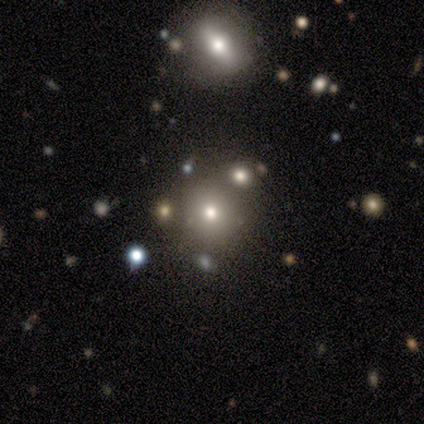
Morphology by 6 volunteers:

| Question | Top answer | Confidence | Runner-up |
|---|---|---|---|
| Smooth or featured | star or artifact | 50% | smooth (33%) |